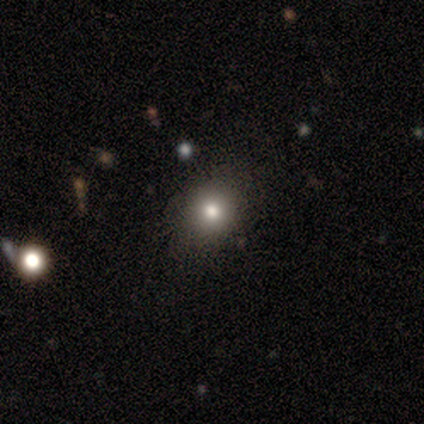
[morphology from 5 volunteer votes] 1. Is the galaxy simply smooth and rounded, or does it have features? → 60% smooth, 40% star or artifact, 0% featured or disk.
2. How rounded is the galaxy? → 67% round, 33% in between, 0% cigar-shaped.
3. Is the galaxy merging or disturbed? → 100% none, 0% minor disturbance, 0% major disturbance, 0% merger.